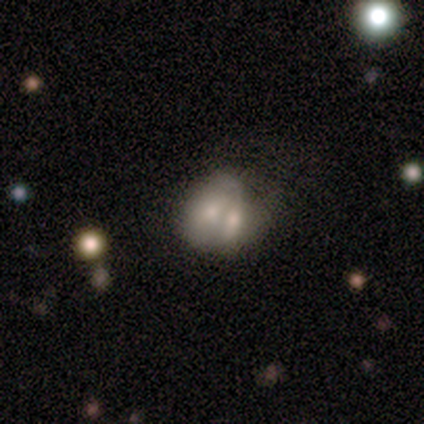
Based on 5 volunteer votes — This is clearly a smooth galaxy (80%). How rounded: possibly round (50%, tied with in between). Merging: clearly merger (80%).